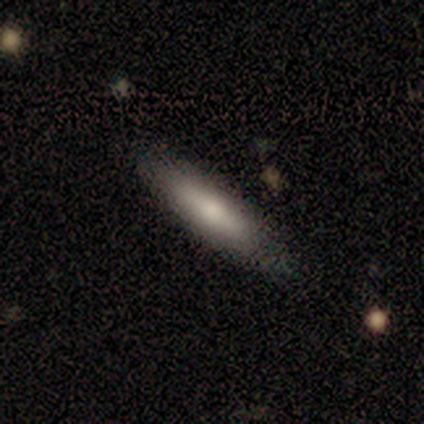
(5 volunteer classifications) Smooth or featured? smooth (60%)
How rounded? cigar-shaped (67%)
Merging? none (100%)